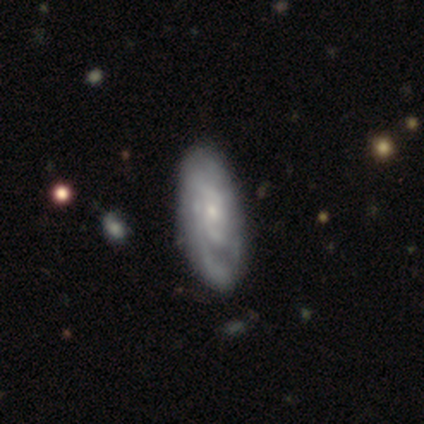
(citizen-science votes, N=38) Smooth or featured? featured or disk (89%)
Edge-on disk? no (94%)
Bar? no (75%)
Spiral arms? yes (97%)
Spiral winding? tight (77%)
Spiral arm count? can't tell (58%)
Bulge size? small (84%)
Merging? none (39%)